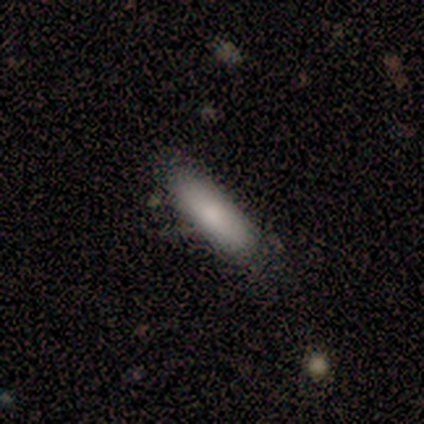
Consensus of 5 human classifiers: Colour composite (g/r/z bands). It shows a smooth galaxy with no disk features (80%) that is in between round and cigar-shaped (50%, tied with cigar-shaped). Merging: none (80%).